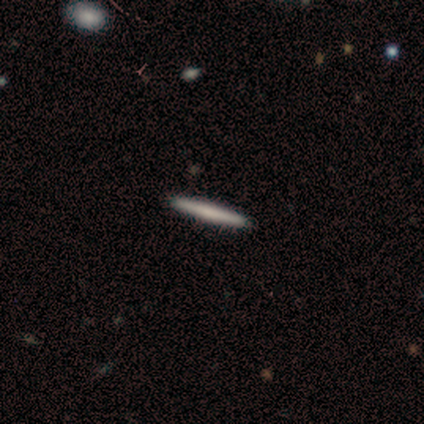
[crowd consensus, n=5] Smooth or featured: smooth — 80% (featured or disk — 20%)
How rounded: cigar-shaped — 100%
Merging: none — 80% (minor disturbance — 20%)